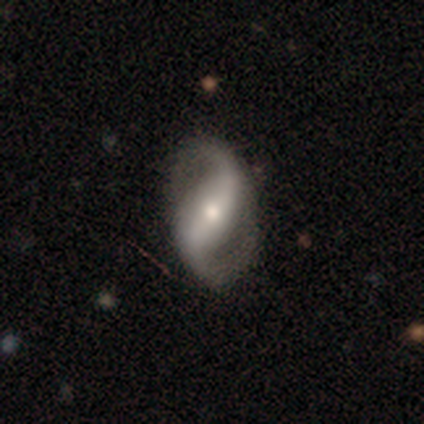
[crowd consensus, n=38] featured or disk 89%, smooth 11%, star or artifact 0%. Down the decision tree: edge-on disk — no (94%); bar — strong (56%); spiral arms — yes (97%); spiral arm count — 2 (100%); spiral winding — loose (68%); bulge size — moderate (53%); merging — none (66%).